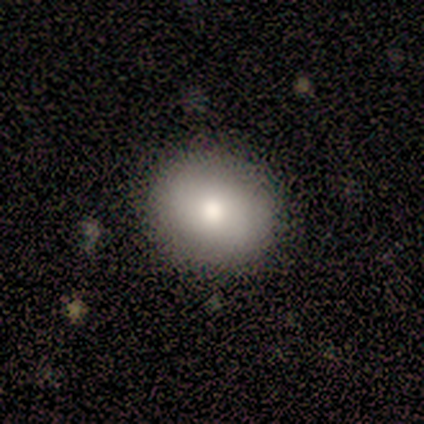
A smooth galaxy with no disk features (100%) that is round (80%). Merging: none (100%).